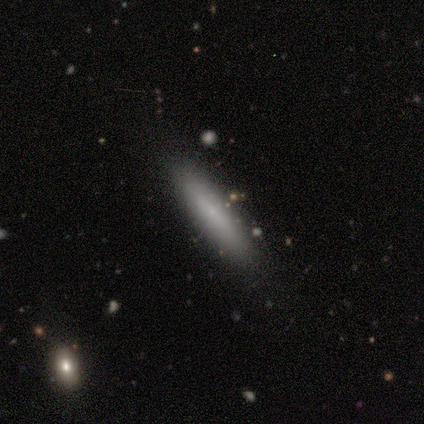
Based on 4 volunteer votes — Volunteers were most divided on "how rounded": in between: 67%, cigar-shaped: 33%, round: 0%. More confident: merging — none (100%); smooth or featured — smooth (75%).